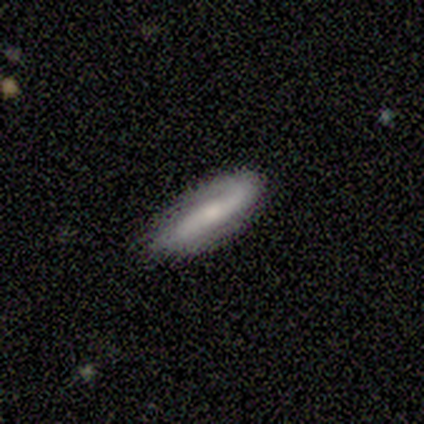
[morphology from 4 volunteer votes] Smooth or featured? smooth (50%, tied with featured or disk)
How rounded? in between (100%)
Merging? none (75%)